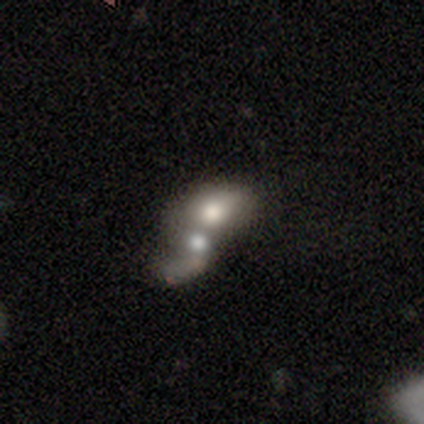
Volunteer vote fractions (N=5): Overall: featured or disk (60%; smooth 40%). Edge-on disk: no (100%). Bar: no (67%; weak 33%). Spiral arms: no (100%). Bulge size: large (33%, tied with moderate and none). Merging: merger (100%).